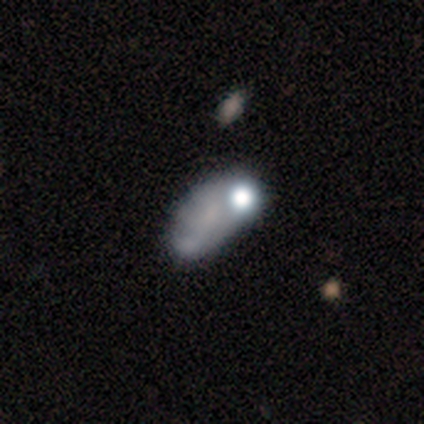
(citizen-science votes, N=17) Overall: smooth (41%; featured or disk 35%). How rounded: in between (100%). Merging: none (38%; minor disturbance 23%).